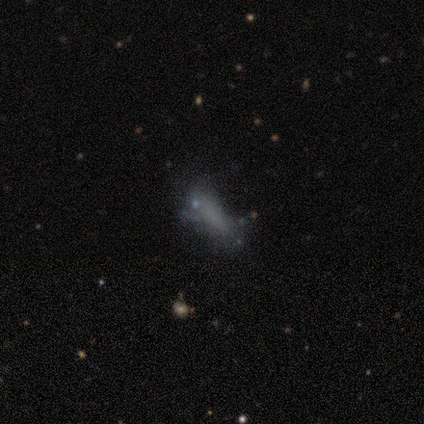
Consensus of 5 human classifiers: This appears to be a smooth galaxy with no disk features (60%) that is cigar-shaped (67%). Merging: minor disturbance (67%).